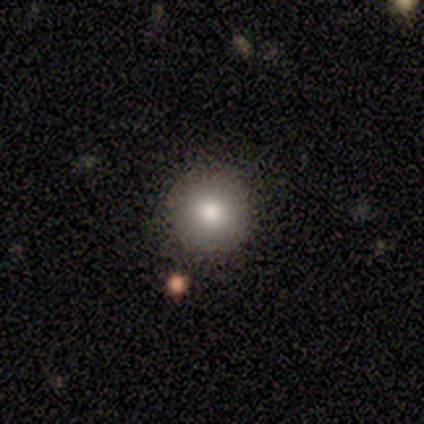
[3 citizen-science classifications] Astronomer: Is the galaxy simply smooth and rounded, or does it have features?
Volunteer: star or artifact — 67%.